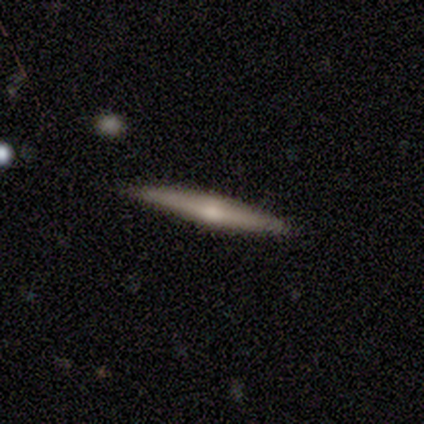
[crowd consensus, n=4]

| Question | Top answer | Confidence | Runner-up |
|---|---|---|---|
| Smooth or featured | featured or disk | 100% | — |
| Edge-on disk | yes | 100% | — |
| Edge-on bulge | rounded | 100% | — |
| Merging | none | 100% | — |